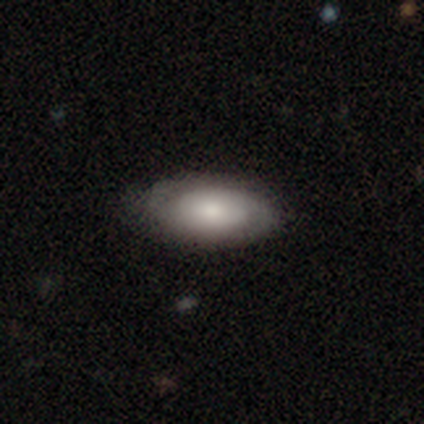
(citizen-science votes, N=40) A smooth galaxy with no disk features (52%) that is in between round and cigar-shaped (90%).

Vote fractions:
- Smooth or featured? smooth: 52% / featured or disk: 45% / star or artifact: 2%
- How rounded? in between: 90% / round: 10% / cigar-shaped: 0%
- Merging? none: 79% / minor disturbance: 15% / major disturbance: 5% / merger: 0%